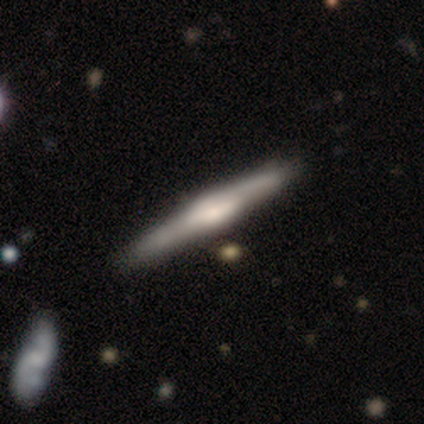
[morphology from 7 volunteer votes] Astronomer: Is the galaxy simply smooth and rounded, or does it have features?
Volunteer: featured or disk — 71%.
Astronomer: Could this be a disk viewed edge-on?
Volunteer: yes — 100%.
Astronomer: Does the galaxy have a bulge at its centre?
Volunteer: rounded — 100%.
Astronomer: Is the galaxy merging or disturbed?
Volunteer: none — 83%.